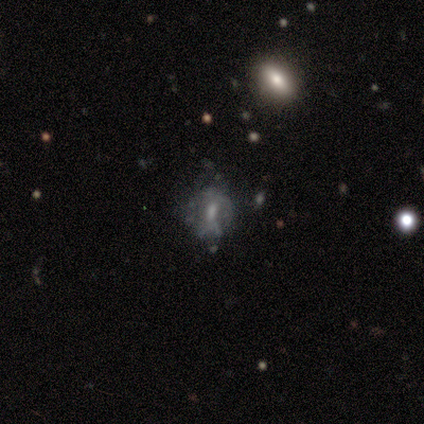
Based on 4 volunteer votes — Smooth or featured: featured or disk — 75% (smooth — 25%)
Edge-on disk: no — 100%
Bar: weak — 67% (no — 33%)
Spiral arms: yes — 67% (no — 33%)
Spiral winding: loose — 100%
Spiral arm count: can't tell — 100%
Bulge size: moderate — 33% (tied with small — 33%; none — 33%)
Merging: none — 75% (major disturbance — 25%)